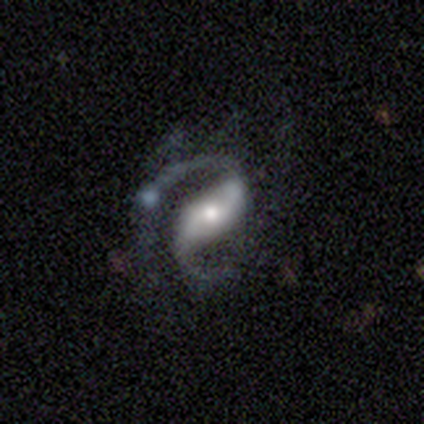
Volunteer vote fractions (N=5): A featured or disk galaxy (100%) with a strong bar (50%), 2 (75%) medium (50%, tied with loose) spiral arms (100%) and a moderate central bulge (100%).

Vote fractions:
- Smooth or featured? featured or disk: 100% / smooth: 0% / star or artifact: 0%
- Edge-on disk? no: 80% / yes: 20%
- Bar? strong: 50% / weak: 25% / no: 25%
- Spiral arms? yes: 100% / no: 0%
- Spiral winding? medium: 50% (tied) / loose: 50% (tied) / tight: 0%
- Spiral arm count? 2: 75% / 1: 25% / 3: 0% / 4: 0% / more than 4: 0% / can't tell: 0%
- Bulge size? moderate: 100% / dominant: 0% / large: 0% / small: 0% / none: 0%
- Merging? major disturbance: 60% / minor disturbance: 20% / merger: 20% / none: 0%